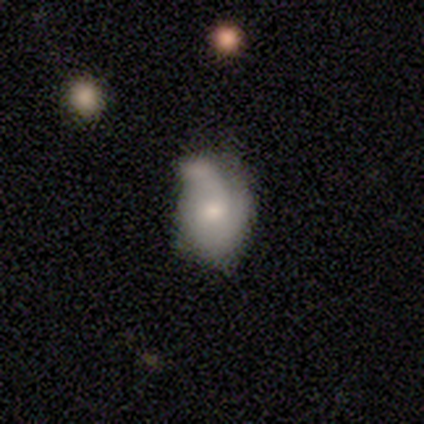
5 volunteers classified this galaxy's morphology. Q: Smooth or featured?
A: smooth (80%); runner-up: featured or disk (20%)
Q: How rounded?
A: round (100%)
Q: Merging?
A: minor disturbance (60%); runner-up: none (20%)